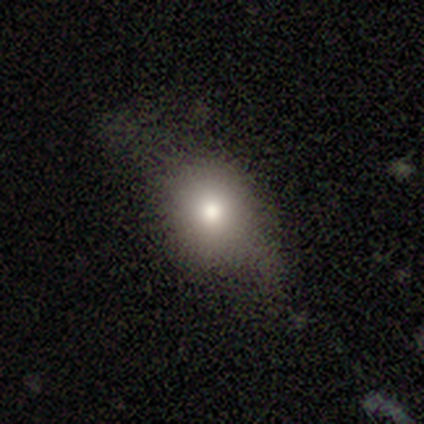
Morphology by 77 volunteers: A smooth galaxy with no disk features (75%) that is round (55%).

Vote fractions:
- Smooth or featured? smooth: 75% / featured or disk: 13% / star or artifact: 12%
- How rounded? round: 55% / in between: 45% / cigar-shaped: 0%
- Merging? none: 26% (tied) / minor disturbance: 26% (tied) / major disturbance: 4% / merger: 0%